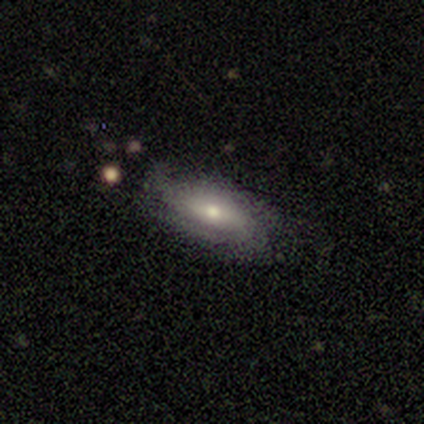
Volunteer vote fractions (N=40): This is possibly a featured or disk galaxy (57%). It is clearly not viewed edge-on (87%). Bar: likely no (60%). Spiral arm pattern: likely yes (70%). Spiral arm count: marginally 2 (29%, tied with 3). Spiral winding: likely tight (64%). Central bulge: possibly moderate (55%). Merging: likely none (65%).